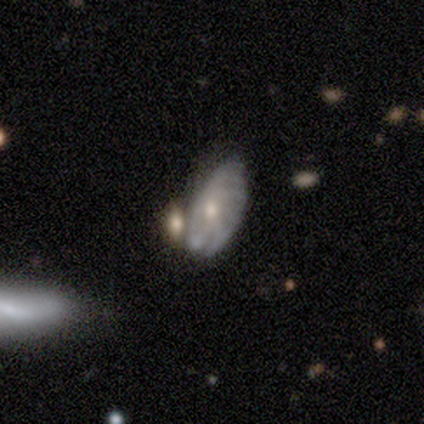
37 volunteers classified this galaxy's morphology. A featured or disk galaxy (54%) with no bar (84%), tight (45%) spiral arms (58%) and a small central bulge (53%). Merging: merger (50%).